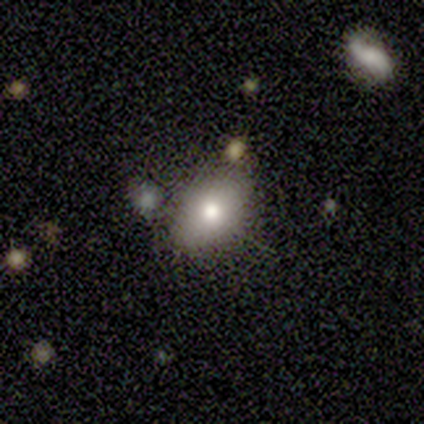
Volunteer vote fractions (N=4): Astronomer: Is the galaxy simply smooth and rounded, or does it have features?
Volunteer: smooth — 75%.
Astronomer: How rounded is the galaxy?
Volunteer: in between — 67%.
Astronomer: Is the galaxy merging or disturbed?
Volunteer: none — 75%.